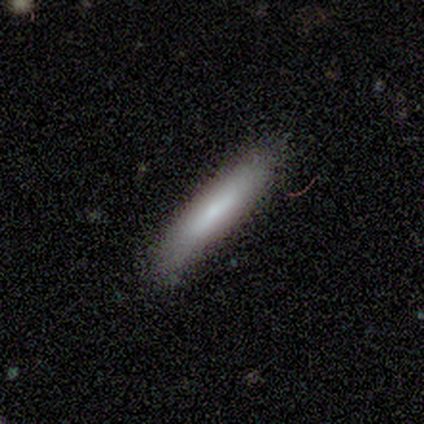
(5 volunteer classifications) This is clearly a smooth galaxy (100%). How rounded: clearly cigar-shaped (80%). Merging: clearly none (100%).